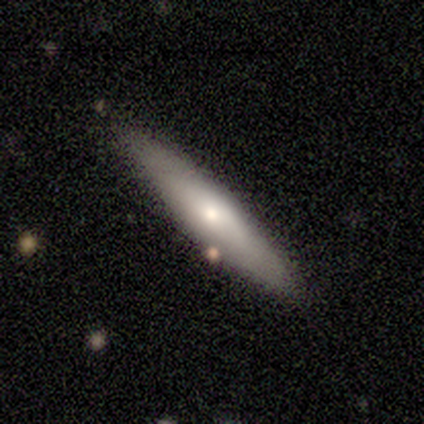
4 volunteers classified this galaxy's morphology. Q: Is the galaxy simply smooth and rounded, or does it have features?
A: smooth — 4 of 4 (100%).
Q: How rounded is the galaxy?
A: cigar-shaped — 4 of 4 (100%).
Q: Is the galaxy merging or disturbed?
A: none — 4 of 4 (100%).